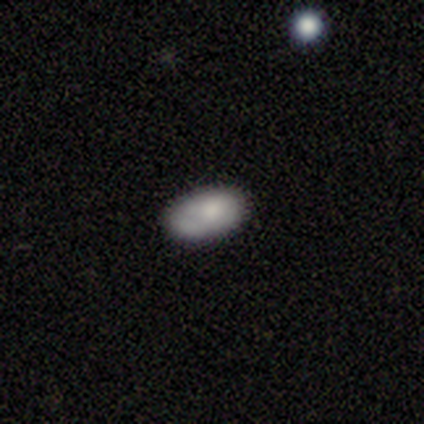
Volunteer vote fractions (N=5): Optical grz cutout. It shows a smooth galaxy with no disk features (100%) that is in between round and cigar-shaped (80%). Merging: none (80%).